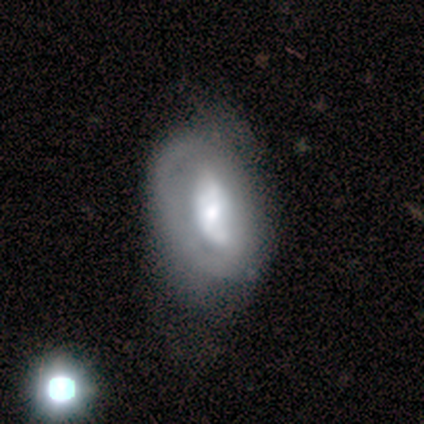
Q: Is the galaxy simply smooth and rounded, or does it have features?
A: featured or disk — 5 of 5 (100%).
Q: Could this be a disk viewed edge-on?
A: no — 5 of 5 (100%).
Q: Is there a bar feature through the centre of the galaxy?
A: weak — 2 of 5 (40%, tied with no).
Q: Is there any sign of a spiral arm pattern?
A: no — 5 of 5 (100%).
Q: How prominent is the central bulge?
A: small — 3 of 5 (60%).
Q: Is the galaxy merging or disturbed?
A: none — 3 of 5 (60%).